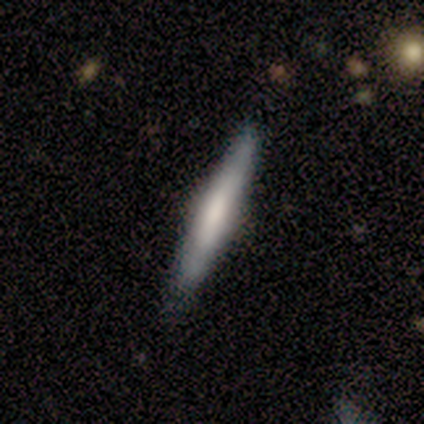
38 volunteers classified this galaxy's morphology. This appears to be a featured or disk galaxy (58%) viewed edge-on (95%) with a rounded central bulge (43%). Merging: none (78%).